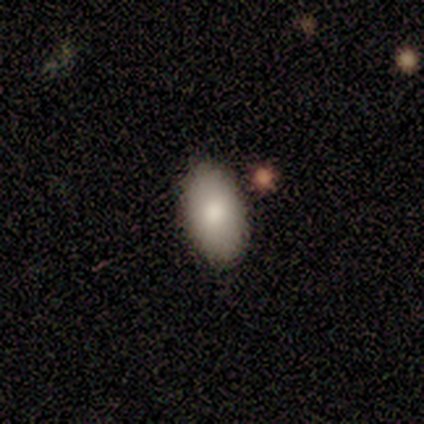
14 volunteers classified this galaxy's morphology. Smooth or featured: smooth — 86% (featured or disk — 14%)
How rounded: in between — 100%
Merging: none — 100%